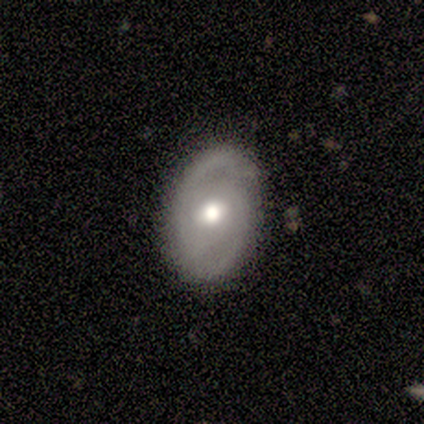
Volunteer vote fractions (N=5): Volunteers were most divided on "spiral arm count" (2-way tie): 2: 50%, can't tell: 50%, 1: 0%, 3: 0%, 4: 0%, more than 4: 0%; "bulge size" (2-way tie): large: 50%, small: 50%, dominant: 0%, moderate: 0%, none: 0%. More confident: bar — weak (100%); spiral arms — yes (100%); spiral winding — medium (100%); merging — none (100%); edge-on disk — no (67%); smooth or featured — featured or disk (60%).